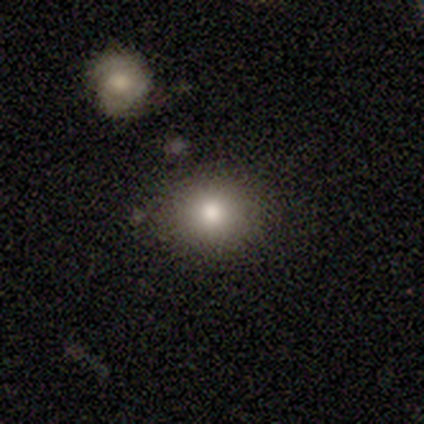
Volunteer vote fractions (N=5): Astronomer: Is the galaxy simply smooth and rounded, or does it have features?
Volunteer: smooth — 80%.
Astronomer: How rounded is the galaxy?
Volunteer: round — 100%.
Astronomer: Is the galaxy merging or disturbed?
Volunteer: none — 75%.